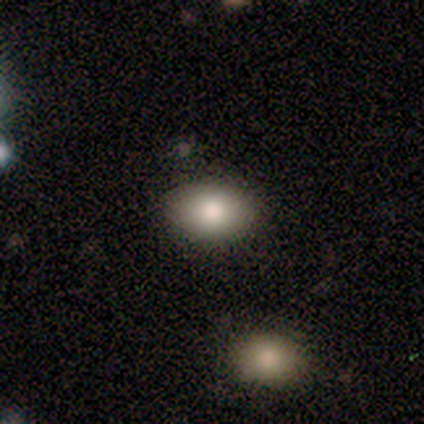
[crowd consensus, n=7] smooth-or-featured: smooth: 86% | star or artifact: 14% | featured or disk: 0%
  how-rounded: in between: 100% | round: 0% | cigar-shaped: 0%
  merging: none: 100% | minor disturbance: 0% | major disturbance: 0% | merger: 0%